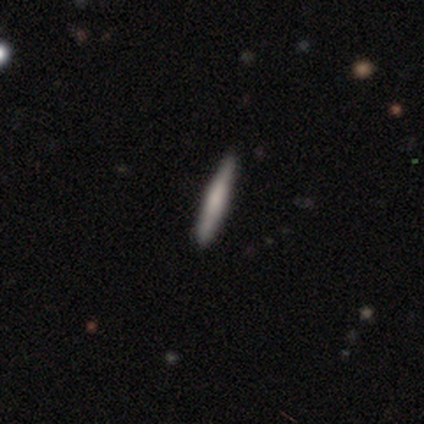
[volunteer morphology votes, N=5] Q: Smooth or featured?
A: smooth (80%); runner-up: featured or disk (20%)
Q: How rounded?
A: cigar-shaped (100%)
Q: Merging?
A: none (100%)